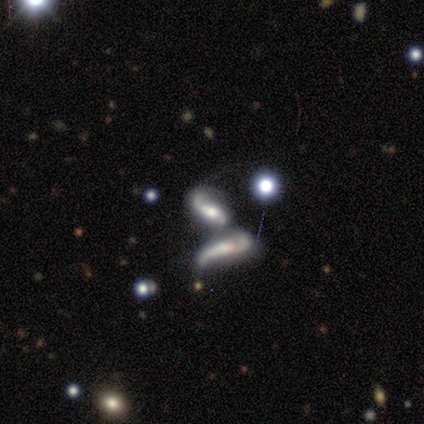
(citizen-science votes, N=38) Morphology: type=featured or disk (71%); edge-on=no (81%); bar=no (50%); spiral arms=yes (82%); winding=loose (61%); arm count=2 (83%); bulge=moderate (55%); merging=merger (82%).